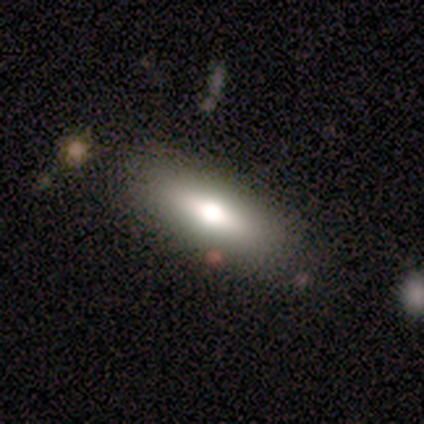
Smooth or featured? 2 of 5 (40%, tied with featured or disk) said smooth. How rounded? 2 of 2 (100%) said in between. Merging? 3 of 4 (75%) said none.